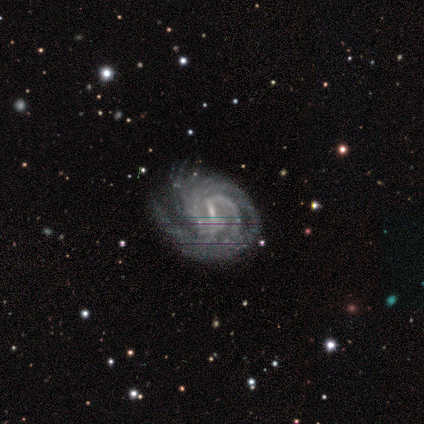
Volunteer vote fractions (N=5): Morphology: type=featured or disk (100%); edge-on=no (100%); bar=weak (80%); spiral arms=yes (100%); winding=tight (100%); arm count=2 (40%, tied with 3); bulge=small (80%); merging=none (60%).